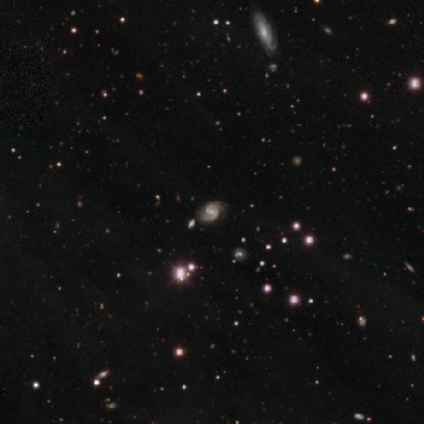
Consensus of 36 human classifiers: Smooth or featured?
  - featured or disk: 81% *
  - star or artifact: 17%
  - smooth: 3%
Edge-on disk?
  - no: 100% *
  - yes: 0%
Bar?
  - weak: 45% *
  - no: 38%
  - strong: 17%
Spiral arms?
  - yes: 93% *
  - no: 7%
Spiral winding?
  - medium: 52% *
  - loose: 26%
  - tight: 22%
Spiral arm count?
  - 2: 93% *
  - 4: 4%
  - can't tell: 4%
  - 1: 0%
  - 3: 0%
  - more than 4: 0%
Bulge size?
  - small: 48% *
  - moderate: 41%
  - none: 7%
  - large: 3%
  - dominant: 0%
Merging?
  - none: 70% *
  - minor disturbance: 27%
  - merger: 3%
  - major disturbance: 0%